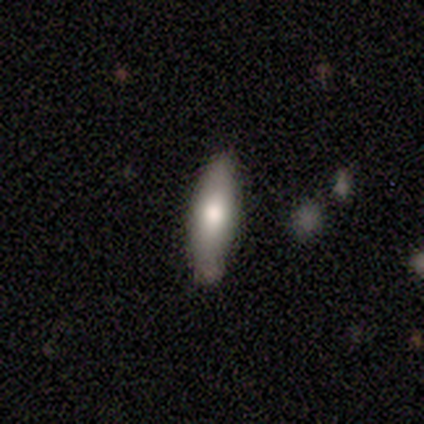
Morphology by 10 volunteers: smooth_or_featured: smooth (p=0.60) [alt: featured or disk p=0.30]
how_rounded: cigar-shaped (p=0.67) [alt: in between p=0.33]
merging: none (p=1.00)